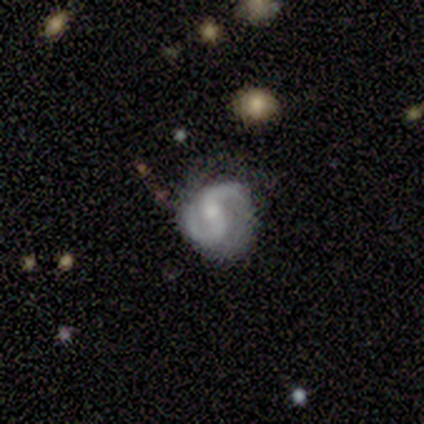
Q: Smooth or featured?
A: featured or disk (100%)
Q: Edge-on disk?
A: no (100%)
Q: Bar?
A: no (60%); runner-up: strong (20%)
Q: Spiral arms?
A: yes (100%)
Q: Spiral winding?
A: medium (60%); runner-up: tight (40%)
Q: Spiral arm count?
A: 2 (100%)
Q: Bulge size?
A: moderate (60%); runner-up: large (20%)
Q: Merging?
A: none (60%); runner-up: minor disturbance (20%)